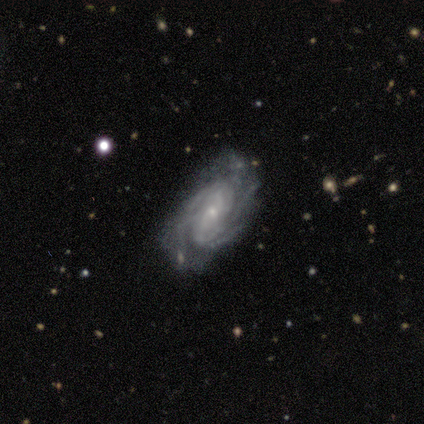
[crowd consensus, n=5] Morphology: type=featured or disk (100%); edge-on=no (100%); bar=no (80%); spiral arms=yes (100%); winding=medium (60%); arm count=3 (40%); bulge=small (100%); merging=none (80%).